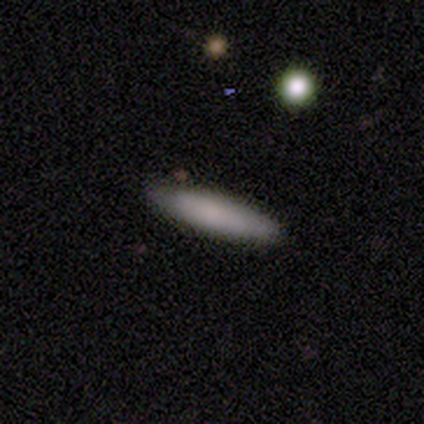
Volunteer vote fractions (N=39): Smooth or featured?
  - smooth: 79% *
  - featured or disk: 13%
  - star or artifact: 8%
How rounded?
  - cigar-shaped: 87% *
  - in between: 13%
  - round: 0%
Merging?
  - none: 94% *
  - minor disturbance: 6%
  - major disturbance: 0%
  - merger: 0%